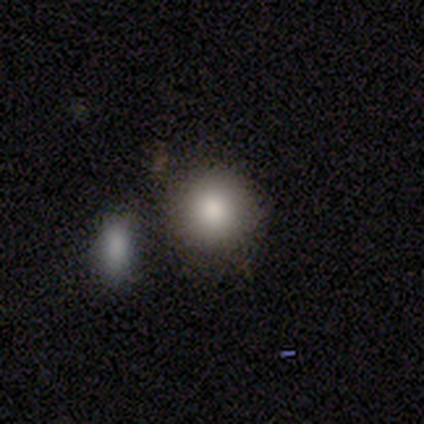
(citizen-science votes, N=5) smooth-or-featured: smooth: 40% (tied) | star or artifact: 40% (tied) | featured or disk: 20%
  how-rounded: round: 100% | in between: 0% | cigar-shaped: 0%
  merging: none: 67% | merger: 33% | minor disturbance: 0% | major disturbance: 0%